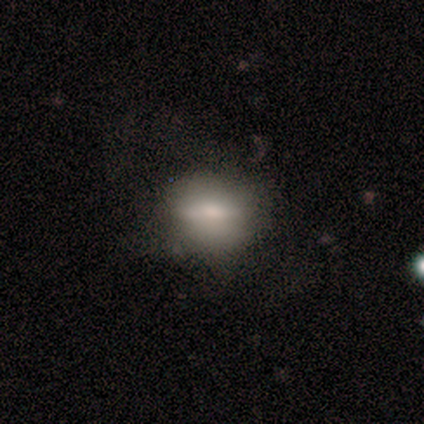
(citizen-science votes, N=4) Smooth or featured? 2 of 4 (50%) said featured or disk. Edge-on disk? 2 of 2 (100%) said no. Bar? 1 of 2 (50%, tied with no) said strong. Spiral arms? 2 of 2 (100%) said no. Bulge size? 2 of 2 (100%) said moderate. Merging? 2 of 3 (67%) said minor disturbance.